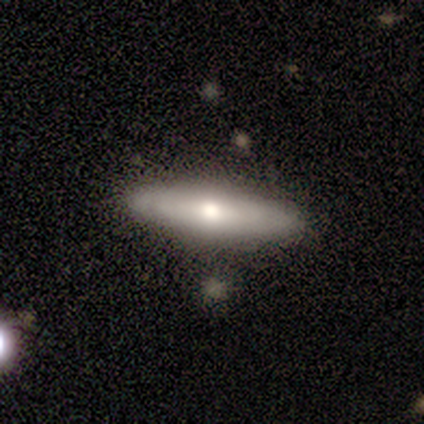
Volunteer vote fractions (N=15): This appears to be a featured or disk galaxy (60%) with no bar (80%), no spiral arms (60%) and a moderate central bulge (80%). Merging: none (100%).